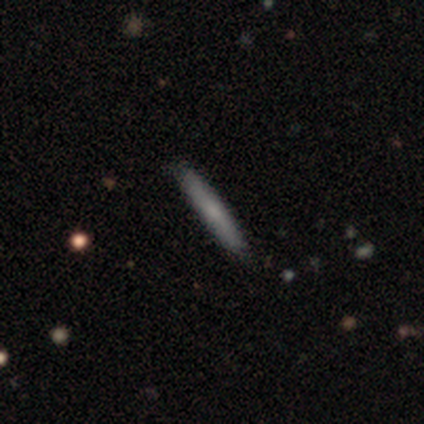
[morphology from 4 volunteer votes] Smooth or featured? 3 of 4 (75%) said featured or disk. Edge-on disk? 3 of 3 (100%) said yes. Edge-on bulge? 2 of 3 (67%) said none. Merging? 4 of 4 (100%) said none.